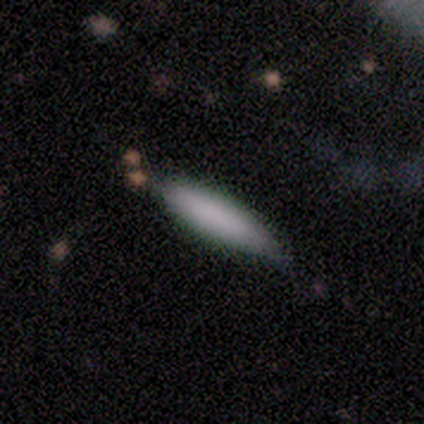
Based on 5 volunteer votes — A smooth galaxy with no disk features (100%) that is cigar-shaped (60%). Merging: minor disturbance (60%).